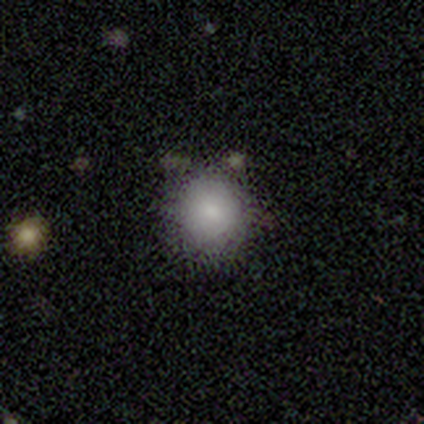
smooth-or-featured: smooth: 80% | star or artifact: 20% | featured or disk: 0%
  how-rounded: round: 100% | in between: 0% | cigar-shaped: 0%
  merging: none: 100% | minor disturbance: 0% | major disturbance: 0% | merger: 0%